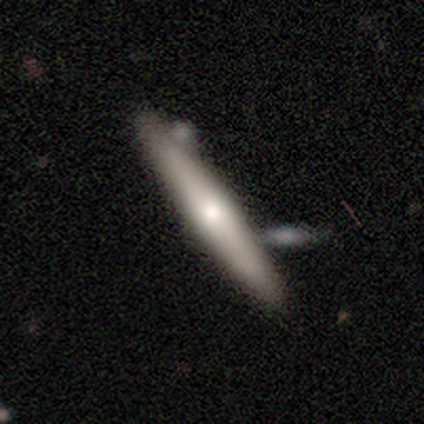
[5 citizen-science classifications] Smooth or featured: smooth — 60% (featured or disk — 40%)
How rounded: cigar-shaped — 67% (in between — 33%)
Merging: none — 80% (merger — 20%)